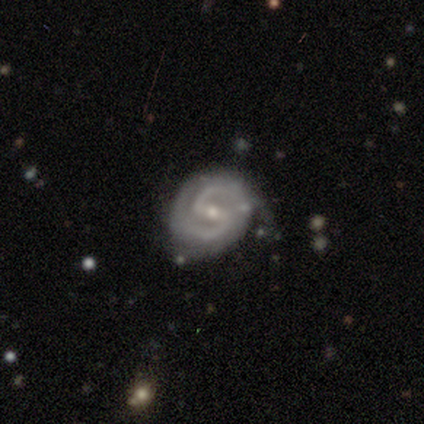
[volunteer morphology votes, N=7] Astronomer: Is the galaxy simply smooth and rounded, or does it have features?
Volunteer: featured or disk — 100%.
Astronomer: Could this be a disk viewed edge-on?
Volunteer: no — 100%.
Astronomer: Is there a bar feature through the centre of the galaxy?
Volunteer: strong — 43%, tied with weak at 43%.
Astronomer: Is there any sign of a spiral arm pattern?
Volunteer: yes — 100%.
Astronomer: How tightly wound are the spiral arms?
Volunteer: medium — 86%.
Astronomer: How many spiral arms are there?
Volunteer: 2 — 100%.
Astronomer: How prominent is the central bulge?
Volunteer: small — 71%.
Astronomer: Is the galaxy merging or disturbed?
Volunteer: none — 71%.